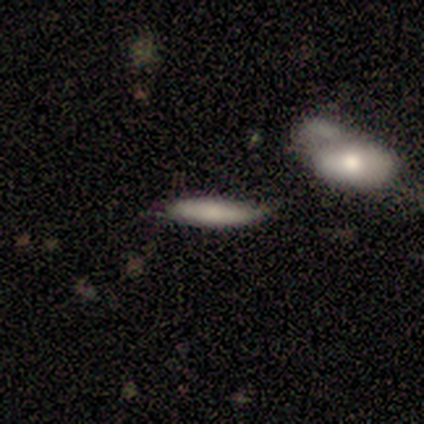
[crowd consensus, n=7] Overall: smooth (100%). How rounded: cigar-shaped (86%). Merging: none (57%; minor disturbance 29%).